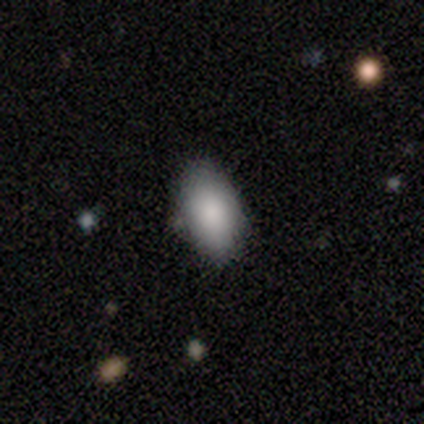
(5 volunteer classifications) Morphology: type=smooth (100%); roundness=in between (60%); merging=none (100%).